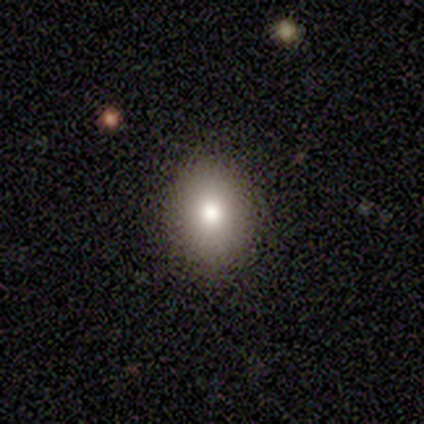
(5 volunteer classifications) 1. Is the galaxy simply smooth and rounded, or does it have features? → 80% smooth, 20% star or artifact, 0% featured or disk.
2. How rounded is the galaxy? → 50% round (tied), 50% in between (tied), 0% cigar-shaped.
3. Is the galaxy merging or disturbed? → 100% none, 0% minor disturbance, 0% major disturbance, 0% merger.